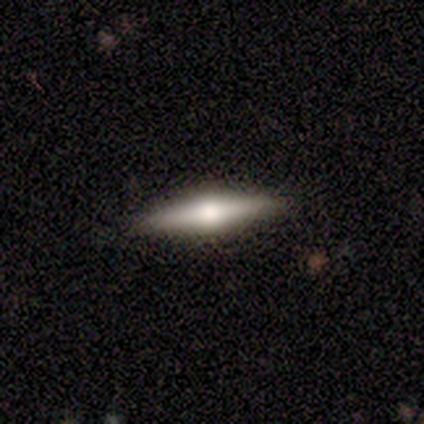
Smooth or featured?
  - featured or disk: 65% *
  - smooth: 25%
  - star or artifact: 10%
Edge-on disk?
  - yes: 96% *
  - no: 4%
Edge-on bulge?
  - rounded: 96% *
  - none: 4%
  - boxy: 0%
Merging?
  - none: 92% *
  - minor disturbance: 8%
  - major disturbance: 0%
  - merger: 0%